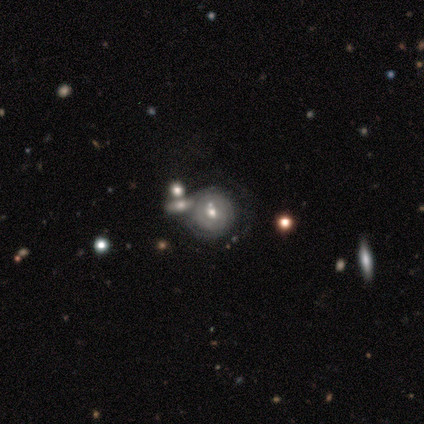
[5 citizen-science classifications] Smooth or featured? smooth (60%)
How rounded? round (100%)
Merging? none (60%)